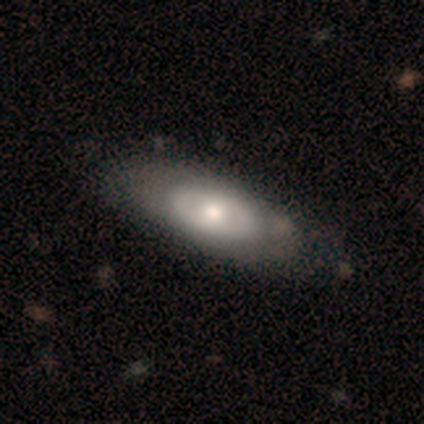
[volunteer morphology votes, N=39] Overall: smooth (56%; featured or disk 38%). How rounded: in between (91%). Merging: none (51%).